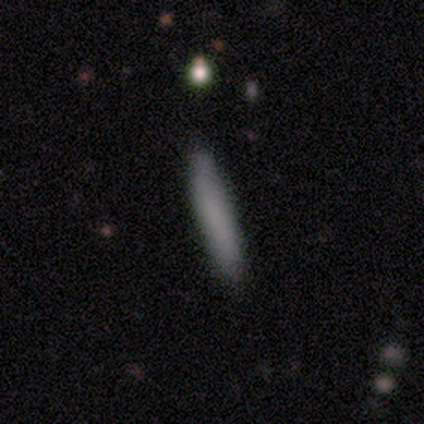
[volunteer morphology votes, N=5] smooth-or-featured: featured or disk: 60% | smooth: 20% | star or artifact: 20%
  disk-edge-on: yes: 100% | no: 0%
    edge-on-bulge: none: 100% | boxy: 0% | rounded: 0%
  merging: none: 75% | minor disturbance: 25% | major disturbance: 0% | merger: 0%